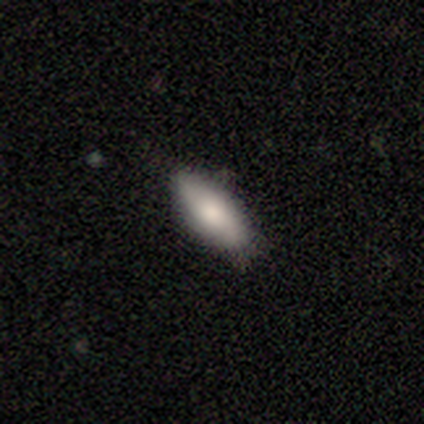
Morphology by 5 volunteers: smooth-or-featured: smooth: 80% | featured or disk: 20% | star or artifact: 0%
  how-rounded: in between: 50% (tied) | cigar-shaped: 50% (tied) | round: 0%
  merging: none: 80% | minor disturbance: 20% | major disturbance: 0% | merger: 0%